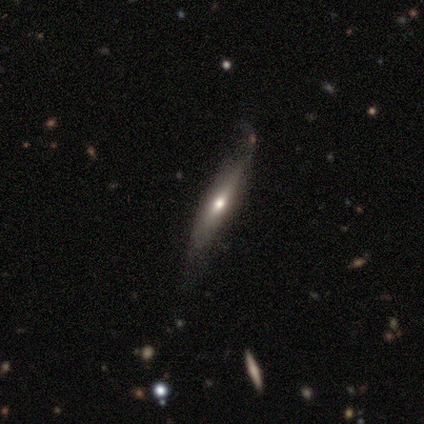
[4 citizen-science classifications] smooth_or_featured: featured or disk (p=0.50) [alt: smooth p=0.25]
disk_edge_on: yes (p=0.50) [tied with: no p=0.50]
edge_on_bulge: rounded (p=1.00)
merging: none (p=0.67) [alt: major disturbance p=0.33]